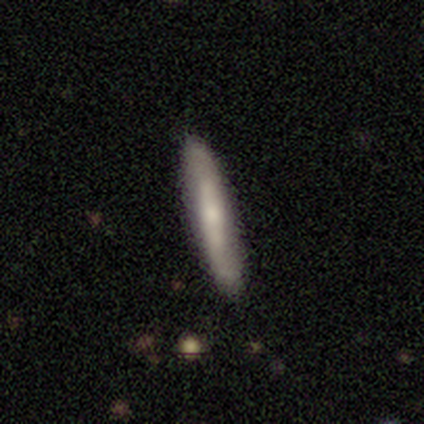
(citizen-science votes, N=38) Q: Smooth or featured?
A: smooth (61%); runner-up: featured or disk (37%)
Q: How rounded?
A: cigar-shaped (100%)
Q: Merging?
A: none (86%); runner-up: minor disturbance (11%)